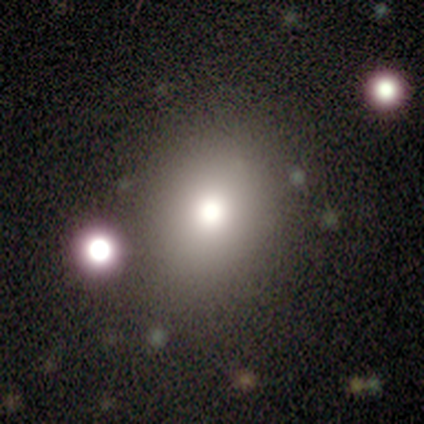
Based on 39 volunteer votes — This appears to be a smooth galaxy with no disk features (79%) that is round (58%). Merging: none (74%).